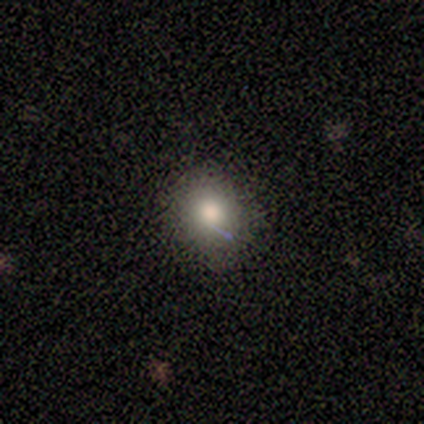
A smooth galaxy with no disk features (83%) that is round (100%).

Vote fractions:
- Smooth or featured? smooth: 83% / featured or disk: 17% / star or artifact: 0%
- How rounded? round: 100% / in between: 0% / cigar-shaped: 0%
- Merging? none: 67% / minor disturbance: 33% / major disturbance: 0% / merger: 0%